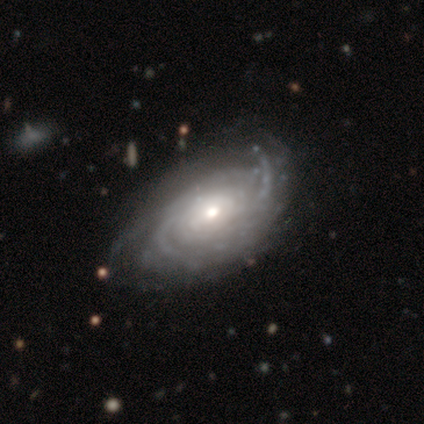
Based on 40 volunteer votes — smooth-or-featured: featured or disk: 100% | smooth: 0% | star or artifact: 0%
  disk-edge-on: no: 100% | yes: 0%
    bar: no: 85% | weak: 12% | strong: 2%
    has-spiral-arms: yes: 95% | no: 5%
      spiral-winding: tight: 71% | medium: 26% | loose: 3%
      spiral-arm-count: can't tell: 58% | 3: 18% | more than 4: 13% | 2: 8% | 4: 3% | 1: 0%
    bulge-size: moderate: 48% | small: 45% | large: 8% | dominant: 0% | none: 0%
  merging: none: 40% | major disturbance: 18% | minor disturbance: 15% | merger: 2%